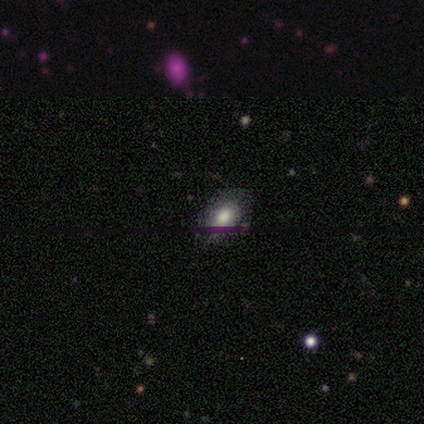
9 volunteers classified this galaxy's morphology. This appears to be a smooth galaxy with no disk features (56%) that is in between round and cigar-shaped (100%). Merging: none (57%).